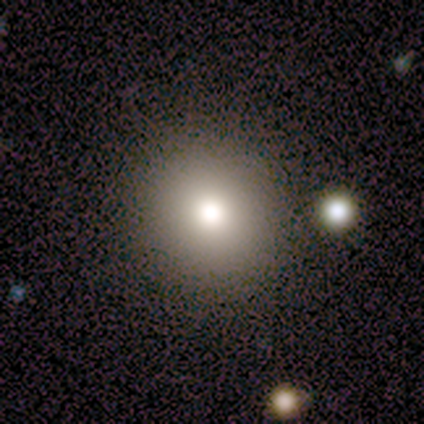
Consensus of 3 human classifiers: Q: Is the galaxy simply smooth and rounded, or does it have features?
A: smooth — 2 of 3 (67%).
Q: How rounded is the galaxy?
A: round — 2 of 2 (100%).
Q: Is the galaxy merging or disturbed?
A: none — 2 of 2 (100%).